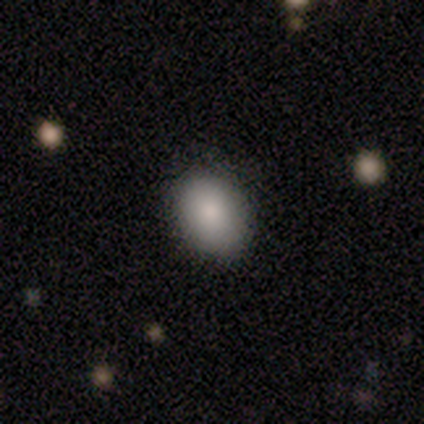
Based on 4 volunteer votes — This is clearly a smooth galaxy (100%). How rounded: likely round (75%). Merging: possibly none (50%, tied with minor disturbance).